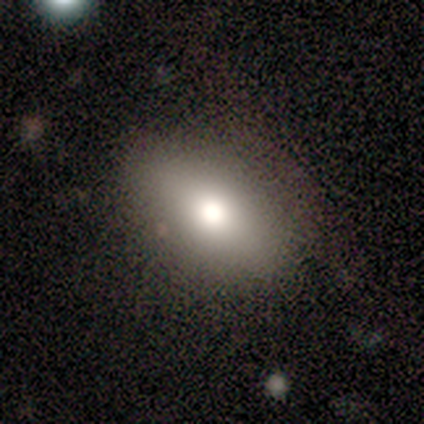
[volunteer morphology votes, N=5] Smooth or featured?
  - smooth: 60% *
  - featured or disk: 40%
  - star or artifact: 0%
How rounded?
  - in between: 100% *
  - round: 0%
  - cigar-shaped: 0%
Merging?
  - none: 60% *
  - minor disturbance: 20%
  - major disturbance: 20%
  - merger: 0%